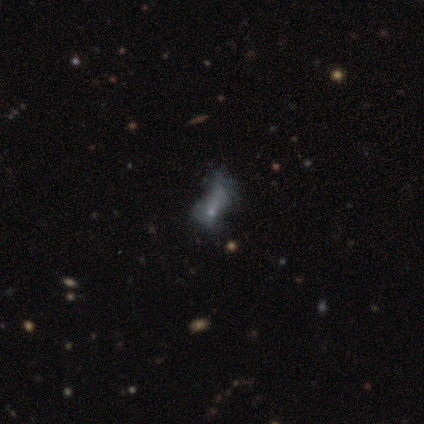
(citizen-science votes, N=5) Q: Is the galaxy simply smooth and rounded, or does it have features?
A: smooth — 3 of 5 (60%).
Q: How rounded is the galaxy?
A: round — 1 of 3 (33%, tied with in between and cigar-shaped).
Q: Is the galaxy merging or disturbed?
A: minor disturbance — 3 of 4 (75%).